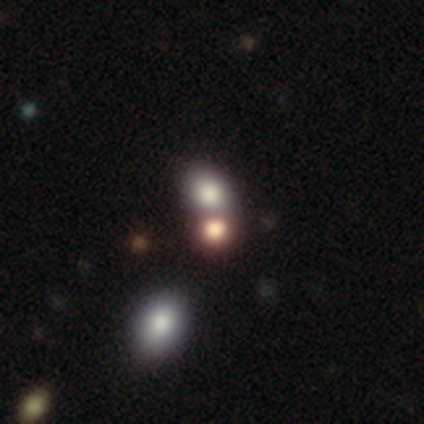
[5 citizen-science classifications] smooth-or-featured: smooth: 40% (tied) | star or artifact: 40% (tied) | featured or disk: 20%
  how-rounded: round: 50% (tied) | in between: 50% (tied) | cigar-shaped: 0%
  merging: none: 67% | merger: 33% | minor disturbance: 0% | major disturbance: 0%